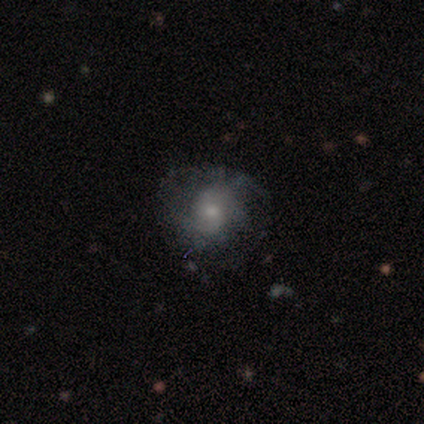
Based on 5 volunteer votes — Volunteers were most divided on "smooth or featured": smooth: 60%, featured or disk: 40%, star or artifact: 0%. More confident: how rounded — round (67%); merging — none (60%).